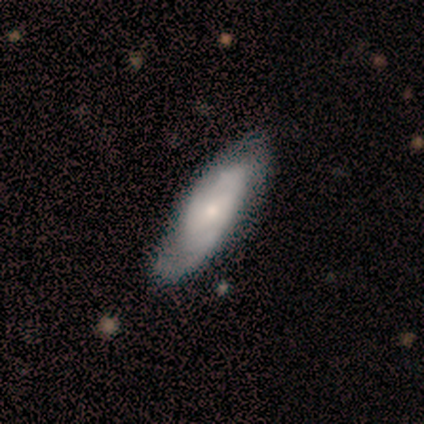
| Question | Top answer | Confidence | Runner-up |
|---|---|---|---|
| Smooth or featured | smooth | 60% | featured or disk (40%) |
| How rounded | cigar-shaped | 100% | — |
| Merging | none | 60% | minor disturbance (20%) |